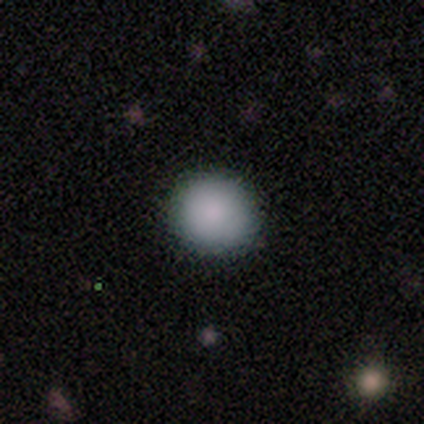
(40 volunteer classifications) Overall: smooth (92%). How rounded: round (86%). Merging: none (92%).